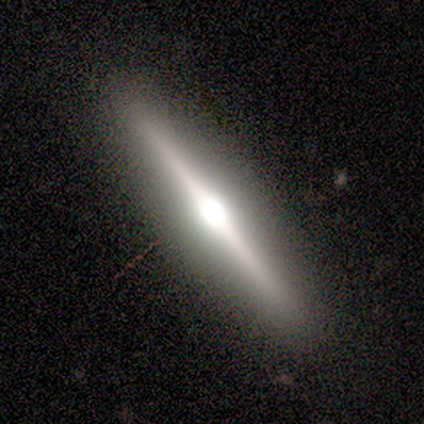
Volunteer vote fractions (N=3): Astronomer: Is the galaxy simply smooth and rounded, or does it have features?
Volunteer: smooth — 67%.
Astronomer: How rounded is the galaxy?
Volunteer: in between — 50%, tied with cigar-shaped at 50%.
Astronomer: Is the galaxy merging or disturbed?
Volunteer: none — 100%.